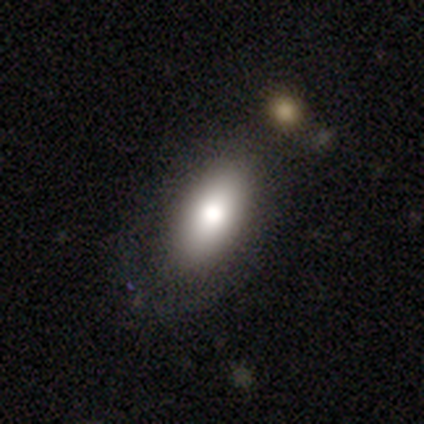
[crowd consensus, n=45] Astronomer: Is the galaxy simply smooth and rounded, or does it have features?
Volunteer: smooth — 82%.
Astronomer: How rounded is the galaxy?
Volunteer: in between — 92%.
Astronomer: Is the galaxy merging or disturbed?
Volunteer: none — 78%.